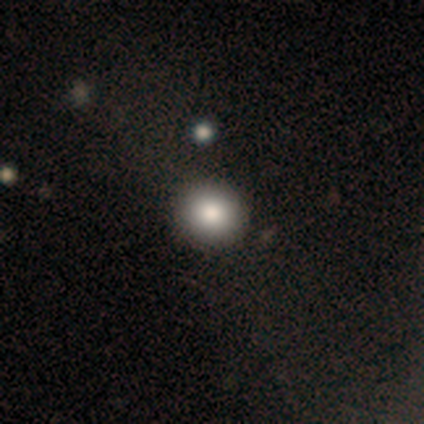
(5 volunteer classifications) This is clearly a smooth galaxy (100%). How rounded: clearly round (100%). Merging: clearly none (100%).